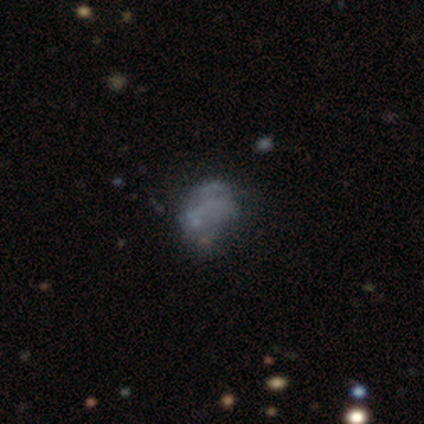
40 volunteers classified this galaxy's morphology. This is possibly a featured or disk galaxy (52%). It is clearly not viewed edge-on (95%). Bar: clearly no (95%). Spiral arm pattern: clearly no (80%). Central bulge: clearly none (90%). Merging: possibly none (47%).